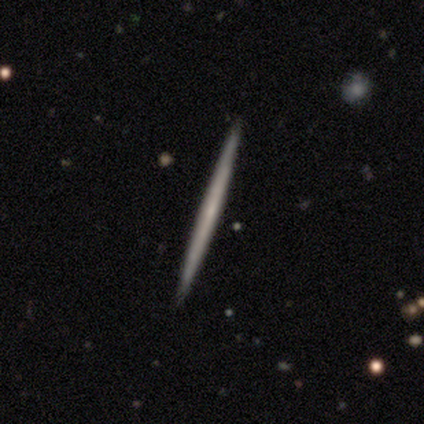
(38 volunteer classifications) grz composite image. It shows a featured or disk galaxy (53%) viewed edge-on (100%) with no central bulge (80%). Merging: none (94%).